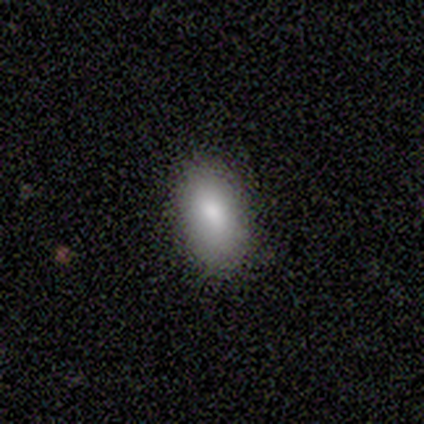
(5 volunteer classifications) Smooth or featured? smooth (100%)
How rounded? in between (100%)
Merging? none (100%)